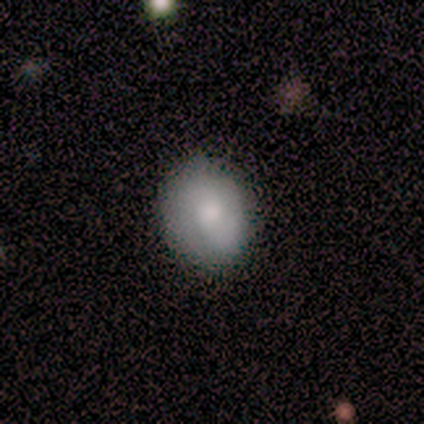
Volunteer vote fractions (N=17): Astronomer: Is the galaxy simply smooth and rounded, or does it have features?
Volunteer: smooth — 82%.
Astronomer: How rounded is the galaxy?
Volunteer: in between — 64%.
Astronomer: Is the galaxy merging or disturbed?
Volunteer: none — 88%.